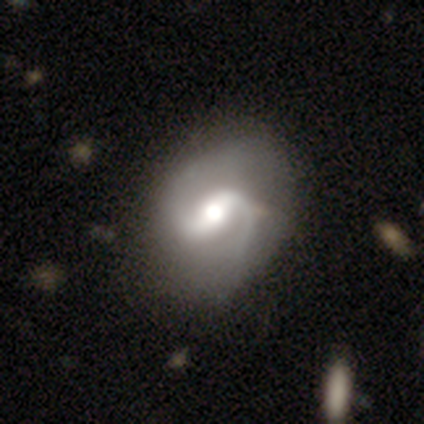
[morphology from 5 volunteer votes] Volunteers were most divided on "spiral winding": loose: 50%, tight: 25%, medium: 25%. More confident: edge-on disk — no (100%); spiral arms — yes (100%); spiral arm count — 2 (100%); bulge size — moderate (100%); smooth or featured — featured or disk (80%); merging — none (80%); bar — strong (75%).